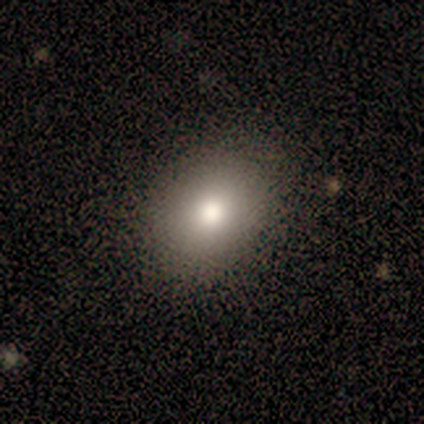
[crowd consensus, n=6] This appears to be a smooth galaxy with no disk features (67%) that is in between round and cigar-shaped (75%). Merging: none (75%).